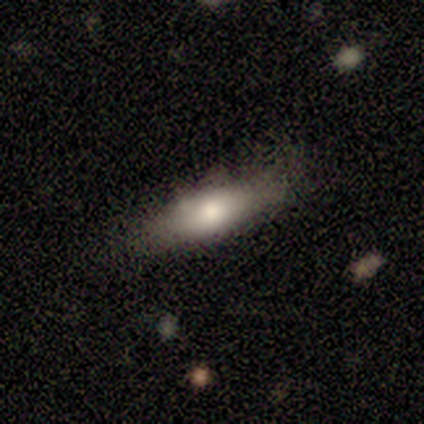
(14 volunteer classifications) Overall: smooth (64%; featured or disk 36%). How rounded: in between (56%; cigar-shaped 44%). Merging: none (64%; minor disturbance 36%).